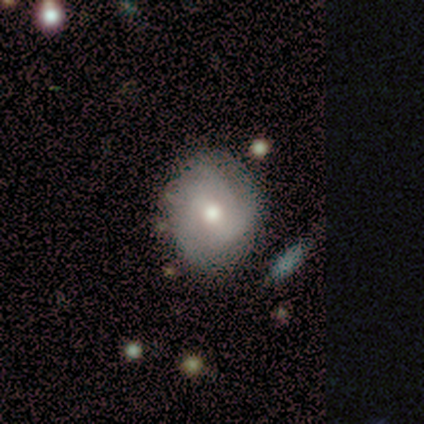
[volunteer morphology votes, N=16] Overall: featured or disk (56%; smooth 44%). Edge-on disk: no (100%). Bar: weak (44%, tied with no). Spiral arms: yes (56%; no 44%). Spiral arm count: can't tell (60%; 2 20%). Spiral winding: tight (60%; medium 20%). Bulge size: moderate (78%). Merging: none (56%; minor disturbance 31%).